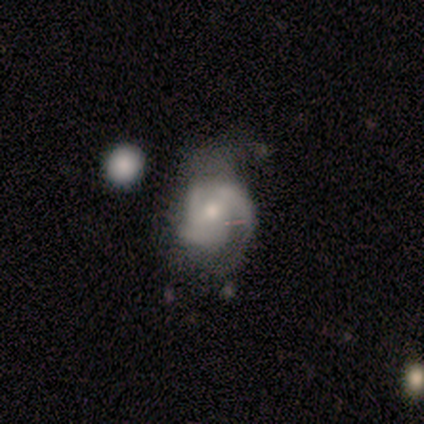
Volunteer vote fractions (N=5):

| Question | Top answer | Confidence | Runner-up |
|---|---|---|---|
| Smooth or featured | smooth | 60% | featured or disk (40%) |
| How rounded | round | 33% | tied: in between (33%), cigar-shaped (33%) |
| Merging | none | 40% | tied: major disturbance (40%) |